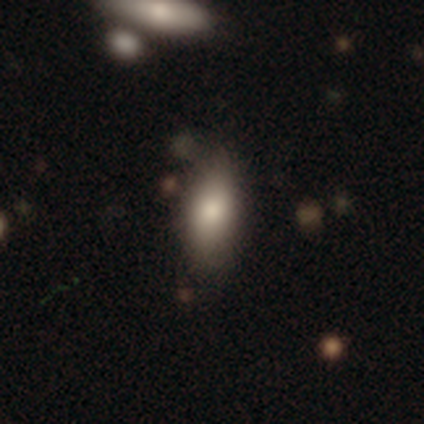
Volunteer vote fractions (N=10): This is clearly a smooth galaxy (90%). How rounded: likely in between (78%). Merging: likely none (78%).